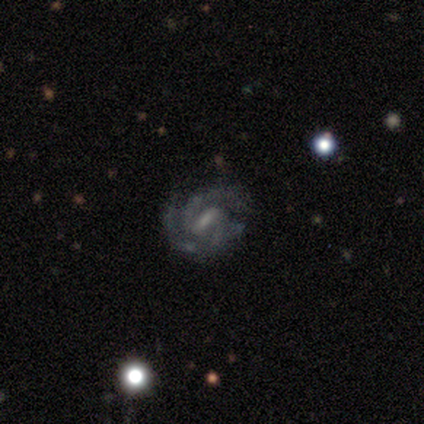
Overall: featured or disk (100%). Edge-on disk: no (100%). Bar: weak (60%; strong 20%). Spiral arms: yes (100%). Spiral arm count: 3 (40%, tied with can't tell). Spiral winding: tight (40%, tied with medium). Bulge size: small (80%). Merging: none (80%).